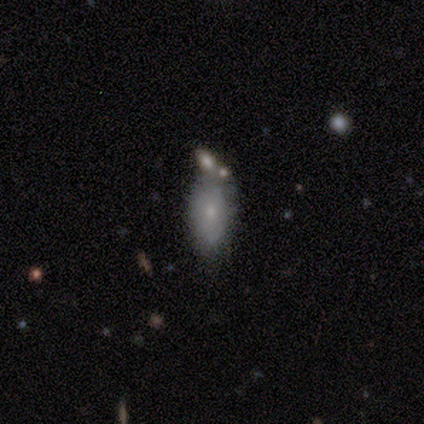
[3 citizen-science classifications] smooth_or_featured: smooth (p=1.00)
how_rounded: in between (p=1.00)
merging: none (p=1.00)